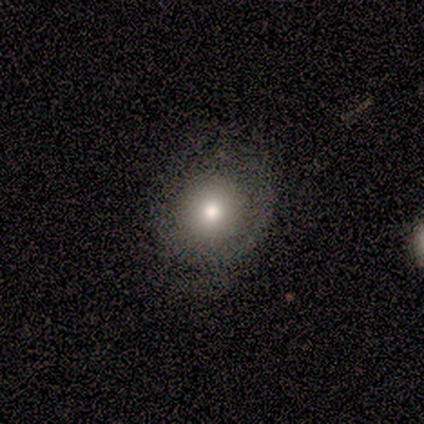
smooth_or_featured: smooth (p=0.77) [alt: star or artifact p=0.15]
how_rounded: round (p=0.80) [alt: in between p=0.20]
merging: none (p=0.64) [alt: minor disturbance p=0.36]